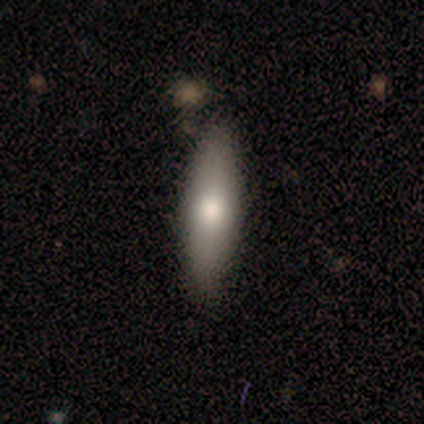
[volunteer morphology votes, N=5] A smooth galaxy with no disk features (60%) that is cigar-shaped (67%).

Vote fractions:
- Smooth or featured? smooth: 60% / featured or disk: 20% / star or artifact: 20%
- How rounded? cigar-shaped: 67% / in between: 33% / round: 0%
- Merging? none: 100% / minor disturbance: 0% / major disturbance: 0% / merger: 0%